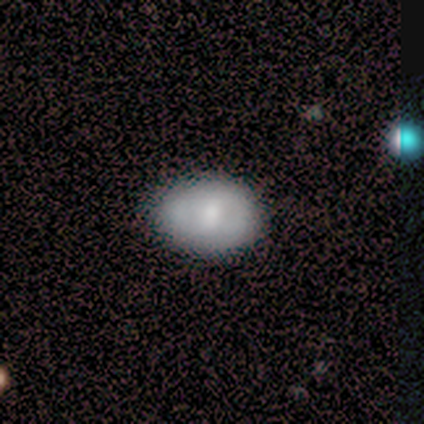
This is clearly a smooth galaxy (80%). How rounded: likely in between (75%). Merging: likely minor disturbance (60%).